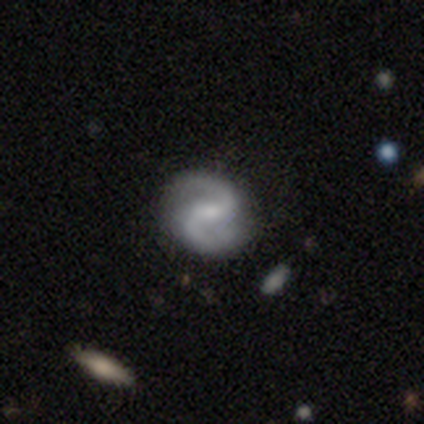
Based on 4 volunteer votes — Volunteers were most divided on "bar" (3-way tie): strong: 33%, weak: 33%, no: 33%. More confident: edge-on disk — no (100%); spiral winding — medium (100%); spiral arm count — 2 (100%); smooth or featured — featured or disk (75%); merging — none (75%); spiral arms — yes (67%); bulge size — none (67%).